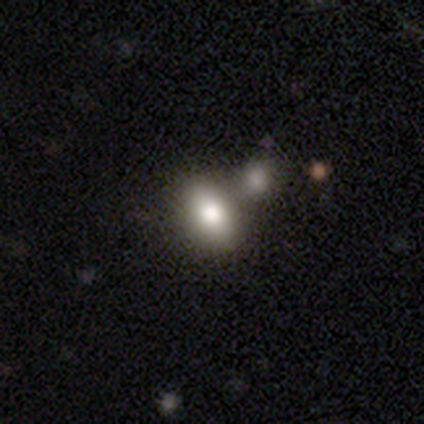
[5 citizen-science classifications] Q: Smooth or featured?
A: smooth (80%); runner-up: featured or disk (20%)
Q: How rounded?
A: in between (75%); runner-up: round (25%)
Q: Merging?
A: none (60%); runner-up: minor disturbance (20%)